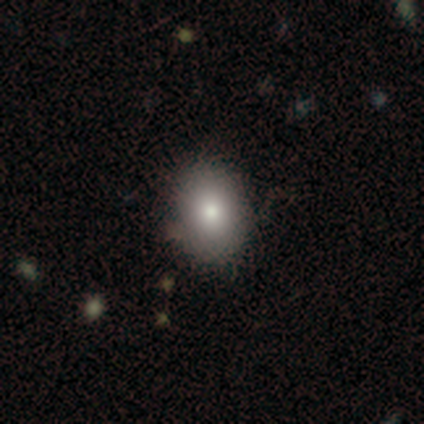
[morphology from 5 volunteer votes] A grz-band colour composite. It shows a smooth galaxy with no disk features (80%) that is in between round and cigar-shaped (100%). Merging: none (80%).